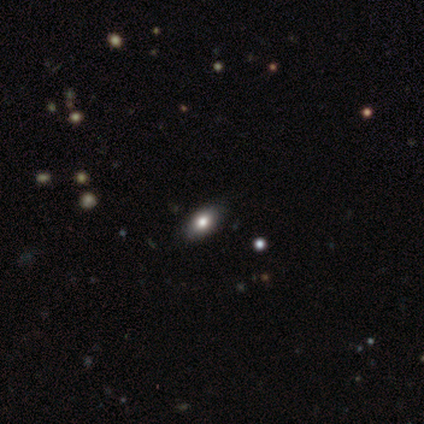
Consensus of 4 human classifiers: This is clearly a smooth galaxy (100%). How rounded: clearly in between (100%). Merging: clearly none (100%).